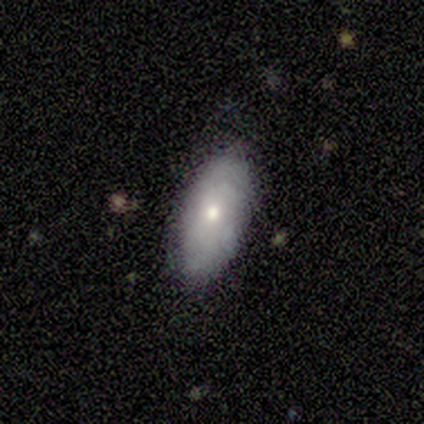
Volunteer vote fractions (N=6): Volunteers were most divided on "smooth or featured": smooth: 83%, featured or disk: 17%, star or artifact: 0%. More confident: how rounded — in between (100%); merging — none (83%).